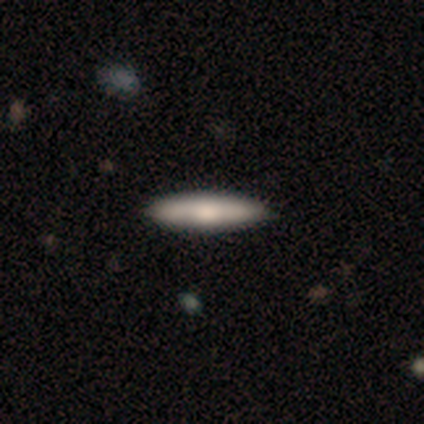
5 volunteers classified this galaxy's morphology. Smooth or featured? smooth (80%)
How rounded? cigar-shaped (75%)
Merging? none (80%)